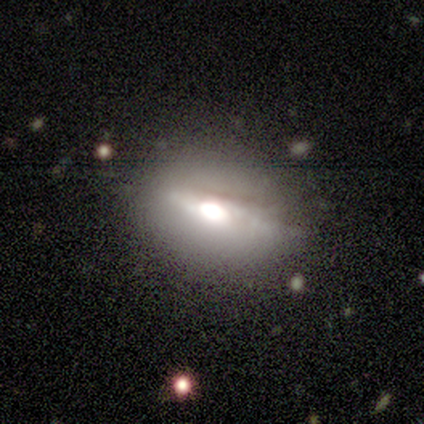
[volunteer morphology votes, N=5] A smooth galaxy with no disk features (40%, tied with featured or disk) that is in between round and cigar-shaped (100%).

Vote fractions:
- Smooth or featured? smooth: 40% (tied) / featured or disk: 40% (tied) / star or artifact: 20%
- How rounded? in between: 100% / round: 0% / cigar-shaped: 0%
- Merging? none: 75% / minor disturbance: 25% / major disturbance: 0% / merger: 0%